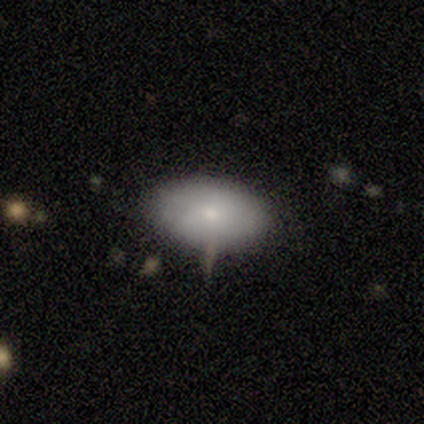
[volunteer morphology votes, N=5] Overall: smooth (80%). How rounded: in between (100%). Merging: none (100%).